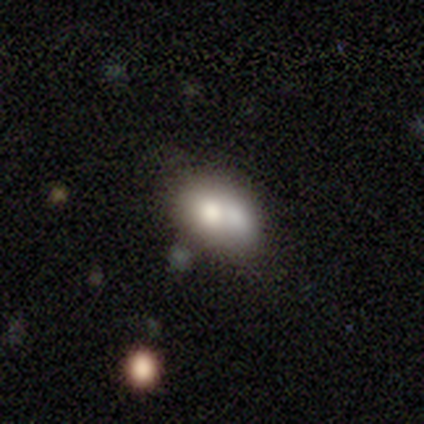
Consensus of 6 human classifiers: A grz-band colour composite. It shows a smooth galaxy with no disk features (50%) that is in between round and cigar-shaped (67%). Merging: none (50%).